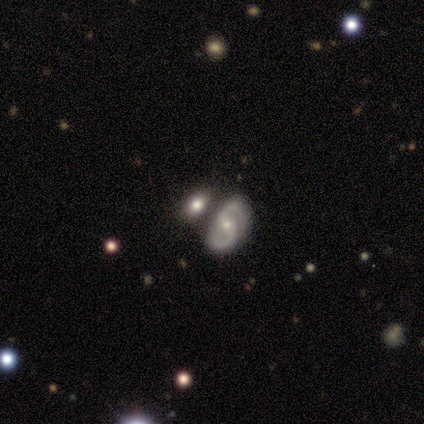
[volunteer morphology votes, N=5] Smooth or featured? 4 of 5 (80%) said featured or disk. Edge-on disk? 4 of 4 (100%) said no. Bar? 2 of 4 (50%) said no. Spiral arms? 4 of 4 (100%) said yes. Spiral winding? 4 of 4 (100%) said medium. Spiral arm count? 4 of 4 (100%) said 2. Bulge size? 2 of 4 (50%, tied with small) said moderate. Merging? 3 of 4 (75%) said none.